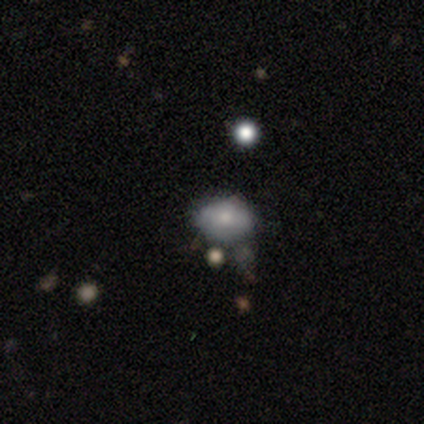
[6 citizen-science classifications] This is likely a smooth galaxy (67%). How rounded: likely in between (75%). Merging: likely none (60%).